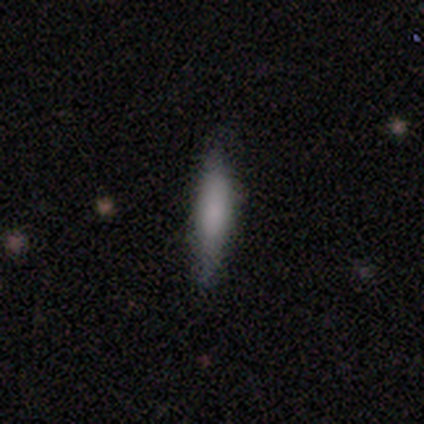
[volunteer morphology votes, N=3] Overall: smooth (67%; star or artifact 33%). How rounded: cigar-shaped (100%). Merging: none (50%, tied with minor disturbance).